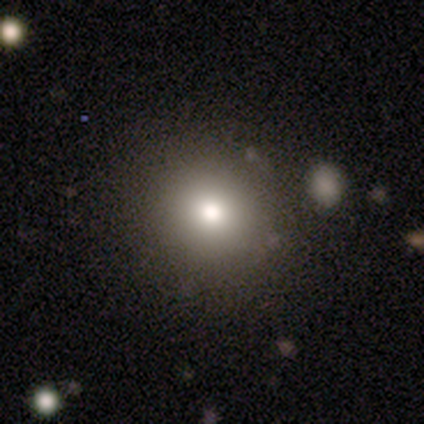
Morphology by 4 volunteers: Smooth or featured? 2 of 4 (50%, tied with featured or disk) said smooth. How rounded? 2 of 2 (100%) said round. Merging? 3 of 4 (75%) said none.